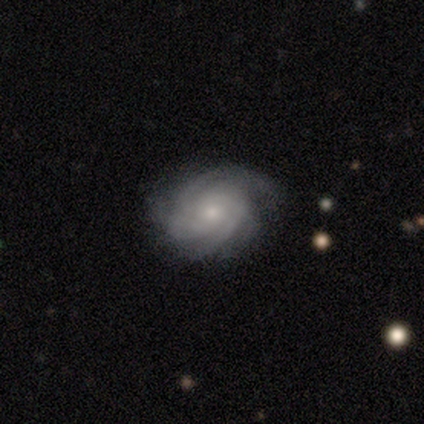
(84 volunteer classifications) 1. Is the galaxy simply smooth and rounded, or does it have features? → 87% featured or disk, 10% smooth, 4% star or artifact.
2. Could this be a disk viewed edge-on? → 99% no, 1% yes.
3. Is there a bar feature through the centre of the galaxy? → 76% no, 22% weak, 1% strong.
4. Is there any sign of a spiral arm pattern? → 100% yes, 0% no.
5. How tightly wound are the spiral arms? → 76% tight, 19% medium, 4% loose.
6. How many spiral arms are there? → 35% can't tell, 26% 3, 17% 2, 14% 4, 6% more than 4, 3% 1.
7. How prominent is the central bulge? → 60% small, 38% moderate, 3% none, 0% dominant, 0% large.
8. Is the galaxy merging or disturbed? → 80% none, 17% minor disturbance, 2% major disturbance, 0% merger.